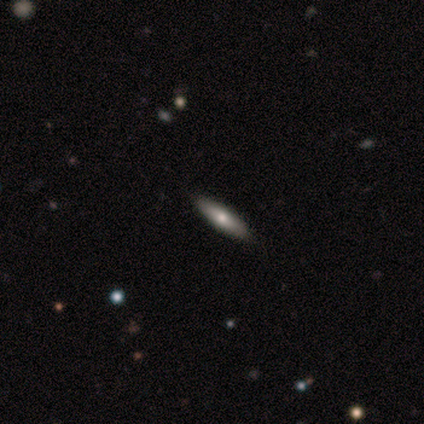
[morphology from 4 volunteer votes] Smooth or featured?
  - smooth: 50% * (tied)
  - featured or disk: 50% * (tied)
  - star or artifact: 0%
How rounded?
  - in between: 50% * (tied)
  - cigar-shaped: 50% * (tied)
  - round: 0%
Merging?
  - none: 100% *
  - minor disturbance: 0%
  - major disturbance: 0%
  - merger: 0%